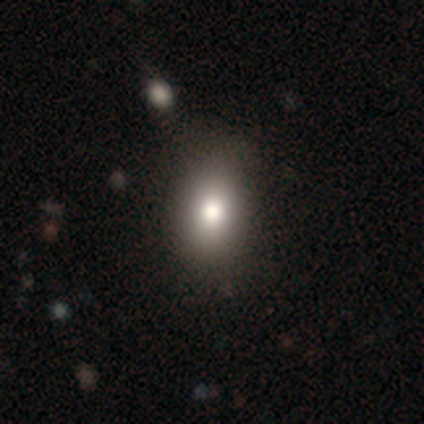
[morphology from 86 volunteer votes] Smooth or featured?
  - smooth: 87% *
  - star or artifact: 8%
  - featured or disk: 5%
How rounded?
  - in between: 75% *
  - round: 25%
  - cigar-shaped: 0%
Merging?
  - none: 86% *
  - minor disturbance: 11%
  - major disturbance: 3%
  - merger: 0%